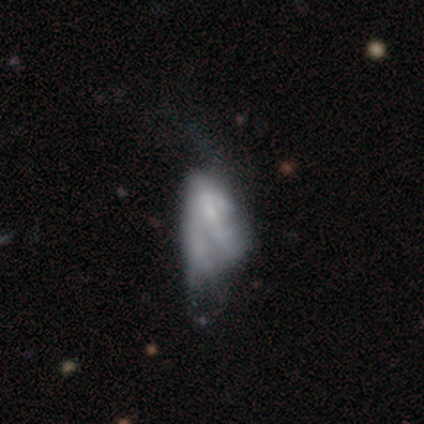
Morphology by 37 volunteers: type=featured or disk (57%); edge-on=no (100%); bar=no (86%); spiral arms=no (81%); bulge=none (52%); merging=major disturbance (56%).